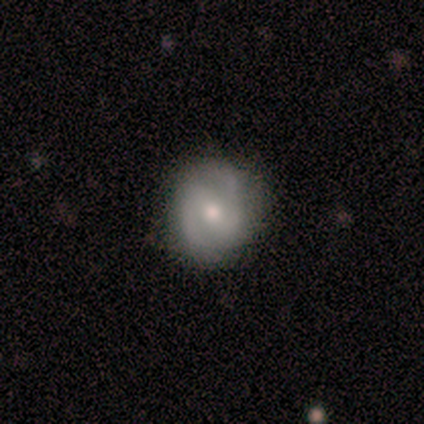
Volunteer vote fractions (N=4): Smooth or featured? 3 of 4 (75%) said featured or disk. Edge-on disk? 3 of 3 (100%) said no. Bar? 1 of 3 (33%, tied with weak and no) said strong. Spiral arms? 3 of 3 (100%) said yes. Spiral winding? 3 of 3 (100%) said medium. Spiral arm count? 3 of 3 (100%) said 2. Bulge size? 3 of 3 (100%) said moderate. Merging? 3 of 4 (75%) said none.